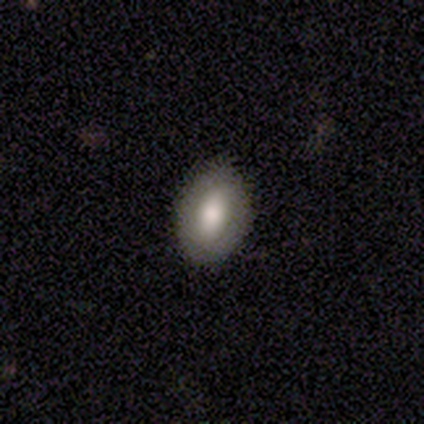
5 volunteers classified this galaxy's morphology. A smooth galaxy with no disk features (60%) that is in between round and cigar-shaped (100%). Merging: none (100%).